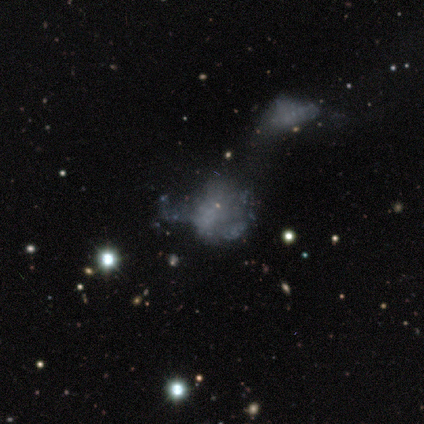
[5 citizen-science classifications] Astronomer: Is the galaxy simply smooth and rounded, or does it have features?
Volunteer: featured or disk — 40%, tied with star or artifact at 40%.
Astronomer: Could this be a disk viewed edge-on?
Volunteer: no — 100%.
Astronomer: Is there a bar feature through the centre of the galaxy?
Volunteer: no — 100%.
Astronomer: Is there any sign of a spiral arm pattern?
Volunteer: no — 100%.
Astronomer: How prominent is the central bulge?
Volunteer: large — 50%, tied with none at 50%.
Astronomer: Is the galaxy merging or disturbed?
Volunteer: none — 67%.